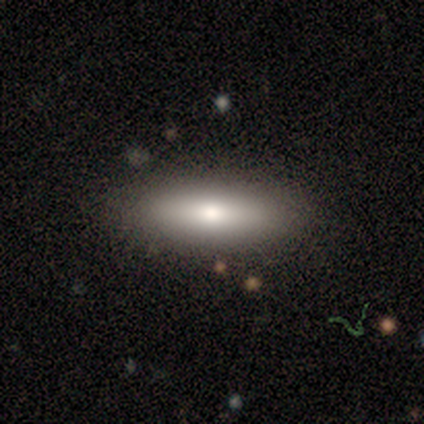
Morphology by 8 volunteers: This appears to be a smooth galaxy with no disk features (75%) that is in between round and cigar-shaped (67%). Merging: none (100%).